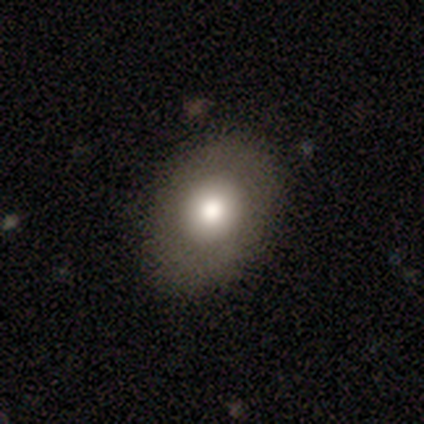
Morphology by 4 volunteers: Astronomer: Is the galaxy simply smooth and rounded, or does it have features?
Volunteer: smooth — 75%.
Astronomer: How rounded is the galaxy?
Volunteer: in between — 67%.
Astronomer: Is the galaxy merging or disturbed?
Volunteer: none — 100%.